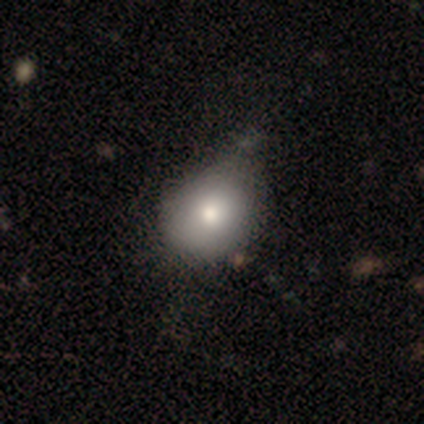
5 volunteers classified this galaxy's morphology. Smooth or featured: smooth — 60% (featured or disk — 20%)
How rounded: round — 67% (cigar-shaped — 33%)
Merging: minor disturbance — 50% (none — 25%)